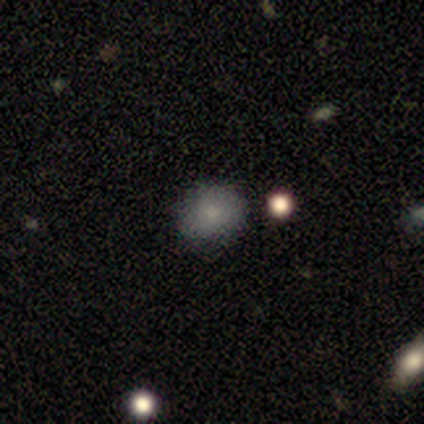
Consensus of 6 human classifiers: smooth_or_featured: smooth (p=0.83) [alt: featured or disk p=0.17]
how_rounded: round (p=0.80) [alt: in between p=0.20]
merging: none (p=1.00)